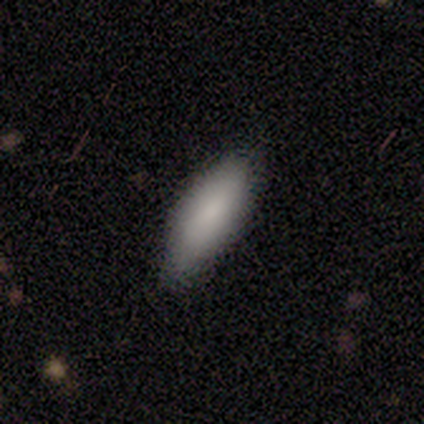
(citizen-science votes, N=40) Morphology: type=smooth (90%); roundness=in between (58%); merging=none (74%).